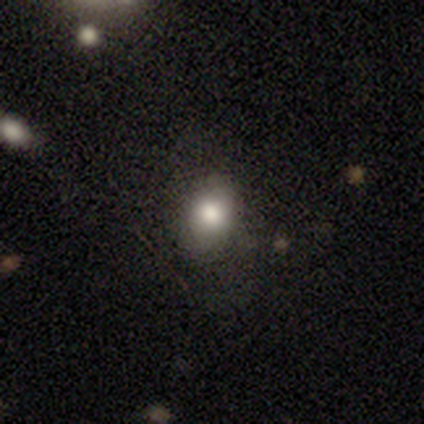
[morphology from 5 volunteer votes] This appears to be a smooth galaxy with no disk features (80%) that is round (50%, tied with in between). Merging: none (75%).